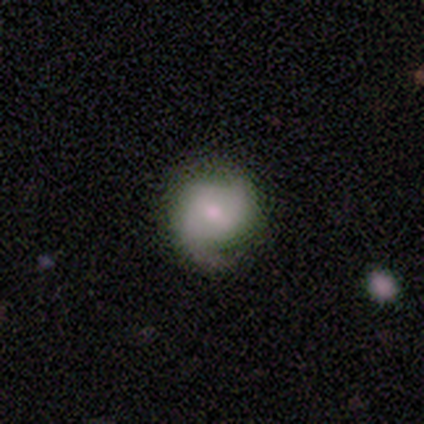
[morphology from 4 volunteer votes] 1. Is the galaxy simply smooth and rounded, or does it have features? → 50% smooth (tied), 50% featured or disk (tied), 0% star or artifact.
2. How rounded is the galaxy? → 50% round (tied), 50% in between (tied), 0% cigar-shaped.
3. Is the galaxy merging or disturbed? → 50% none (tied), 50% minor disturbance (tied), 0% major disturbance, 0% merger.